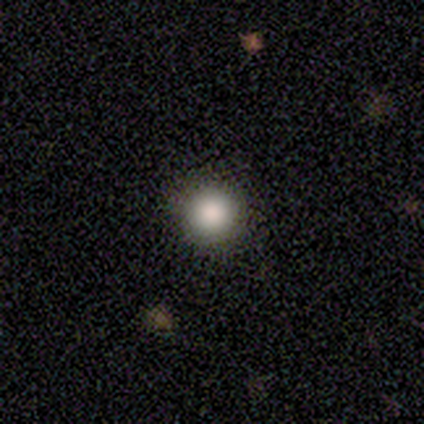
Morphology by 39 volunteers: This appears to be a smooth galaxy with no disk features (90%) that is round (97%). Merging: none (56%).